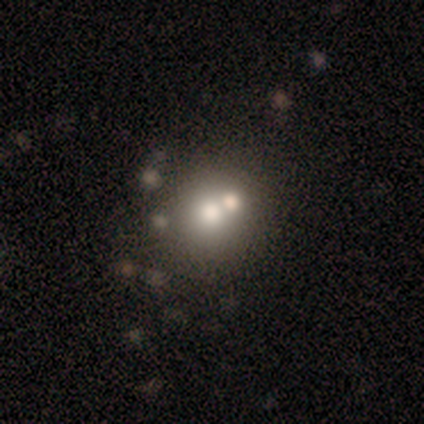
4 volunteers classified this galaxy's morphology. A smooth galaxy with no disk features (75%) that is round (67%). Merging: merger (100%).